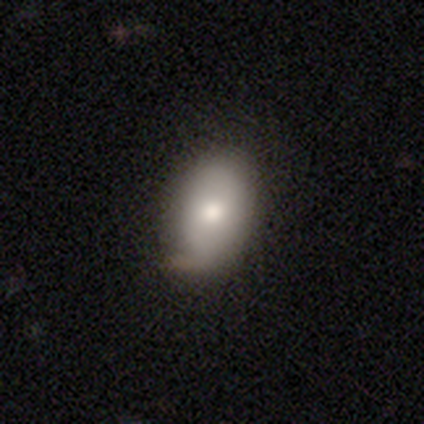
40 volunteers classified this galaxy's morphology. A smooth galaxy with no disk features (68%) that is in between round and cigar-shaped (100%). Merging: none (68%).